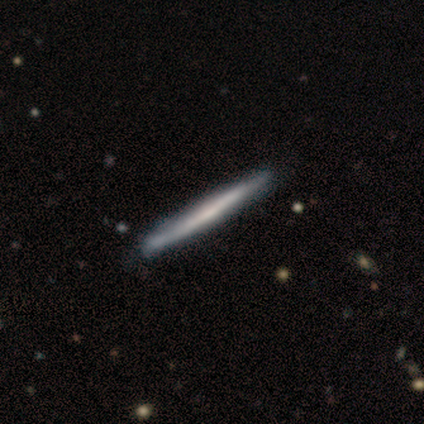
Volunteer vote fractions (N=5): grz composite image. It shows a featured or disk galaxy (60%) viewed edge-on (100%) with no central bulge (67%). Merging: none (80%).